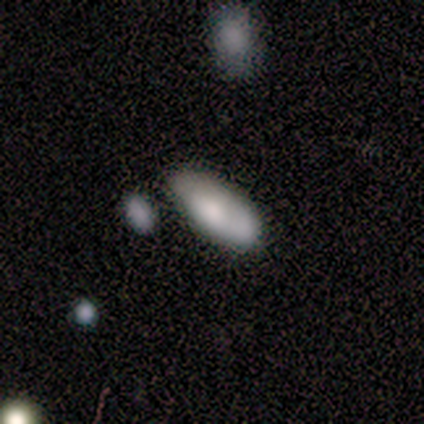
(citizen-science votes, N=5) This appears to be a smooth galaxy with no disk features (80%) that is in between round and cigar-shaped (100%). Merging: none (100%).